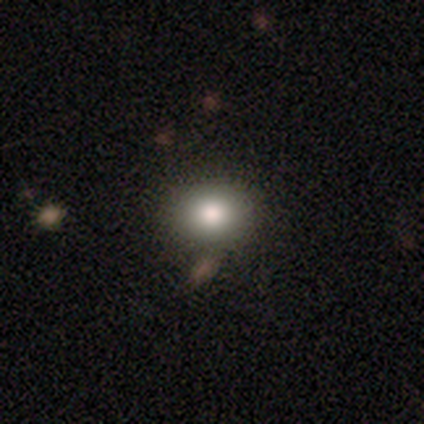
Overall: smooth (71%). How rounded: in between (56%; round 44%). Merging: none (81%).